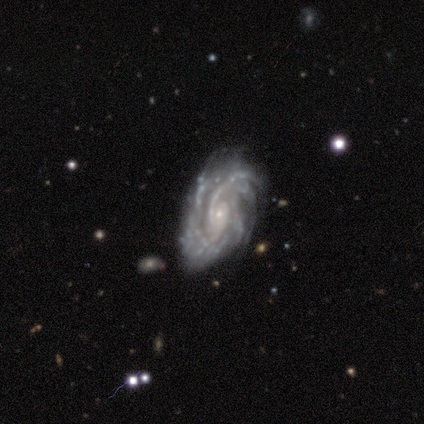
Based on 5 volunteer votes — This appears to be a featured or disk galaxy (100%) with no bar (80%), more than 4 (40%) tight (60%) spiral arms (100%) and a small central bulge (100%). Merging: minor disturbance (60%).